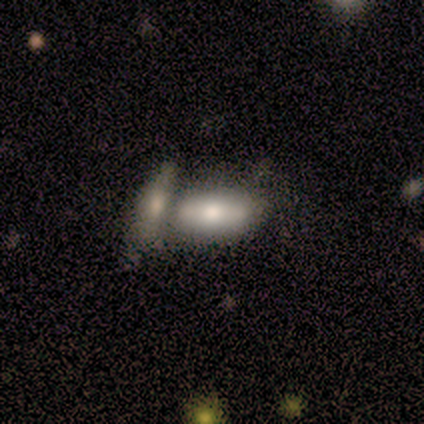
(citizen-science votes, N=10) Smooth or featured?
  - smooth: 80% *
  - featured or disk: 10%
  - star or artifact: 10%
How rounded?
  - in between: 75% *
  - round: 12%
  - cigar-shaped: 12%
Merging?
  - merger: 67% *
  - none: 22%
  - major disturbance: 11%
  - minor disturbance: 0%